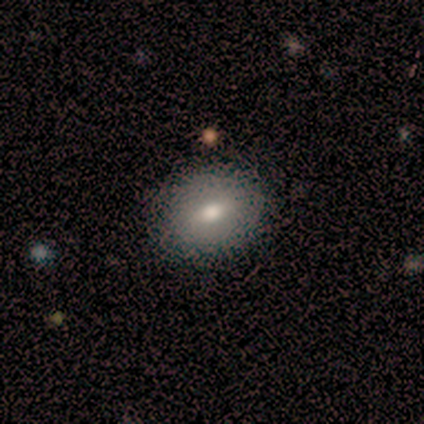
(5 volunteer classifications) smooth-or-featured: smooth: 60% | featured or disk: 20% | star or artifact: 20%
  how-rounded: in between: 67% | round: 33% | cigar-shaped: 0%
  merging: none: 75% | minor disturbance: 25% | major disturbance: 0% | merger: 0%